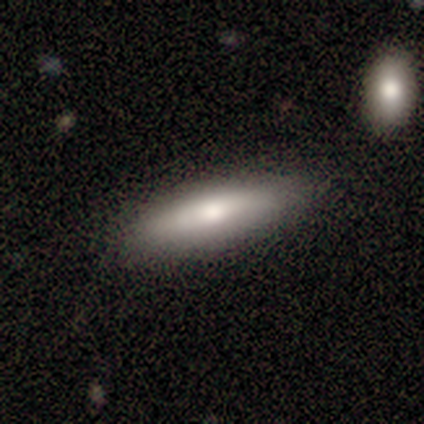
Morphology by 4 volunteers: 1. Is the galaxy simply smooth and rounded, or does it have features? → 75% featured or disk, 25% smooth, 0% star or artifact.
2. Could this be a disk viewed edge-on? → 100% yes, 0% no.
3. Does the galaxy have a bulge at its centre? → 67% rounded, 33% none, 0% boxy.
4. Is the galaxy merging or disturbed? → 100% none, 0% minor disturbance, 0% major disturbance, 0% merger.